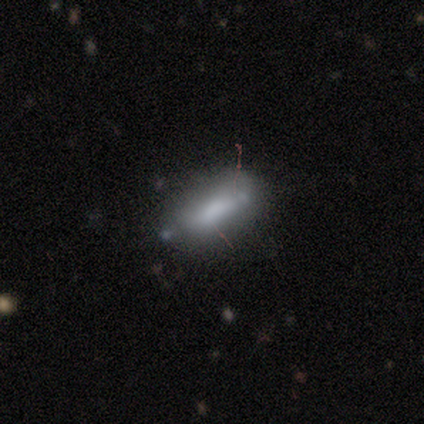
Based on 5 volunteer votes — This appears to be a featured or disk galaxy (60%) with a weak bar (50%, tied with no), no spiral arms (100%) and no central bulge (100%). Merging: none (80%).